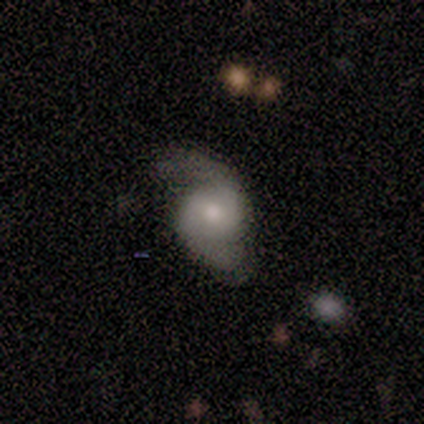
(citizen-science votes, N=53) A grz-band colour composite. It shows a featured or disk galaxy (85%) with no bar (71%), 2 (90%) loose (44%) spiral arms (87%) and a moderate central bulge (69%). Merging: none (73%).